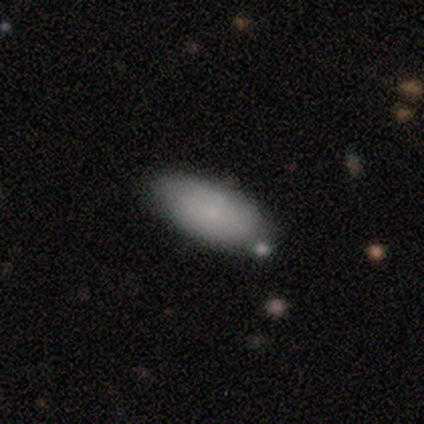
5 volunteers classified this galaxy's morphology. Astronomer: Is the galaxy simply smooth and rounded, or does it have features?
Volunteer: smooth — 60% (runner-up: featured or disk, 40%).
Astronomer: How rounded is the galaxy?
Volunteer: in between — 100%.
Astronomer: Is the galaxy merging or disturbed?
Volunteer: none — 60% (runner-up: minor disturbance, 40%).